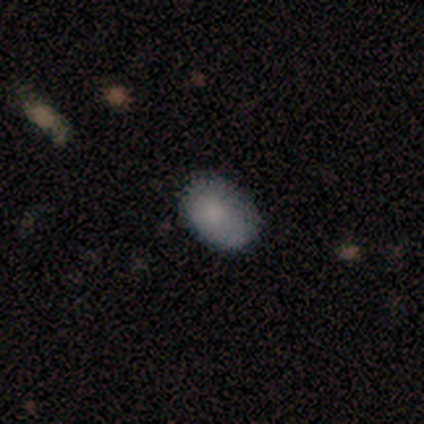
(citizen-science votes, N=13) Smooth or featured? smooth (92%)
How rounded? in between (83%)
Merging? none (100%)